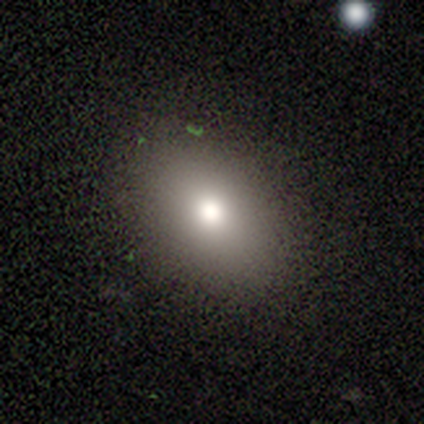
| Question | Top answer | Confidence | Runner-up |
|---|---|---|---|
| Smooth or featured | smooth | 84% | featured or disk (8%) |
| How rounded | in between | 81% | round (19%) |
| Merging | none | 86% | minor disturbance (11%) |